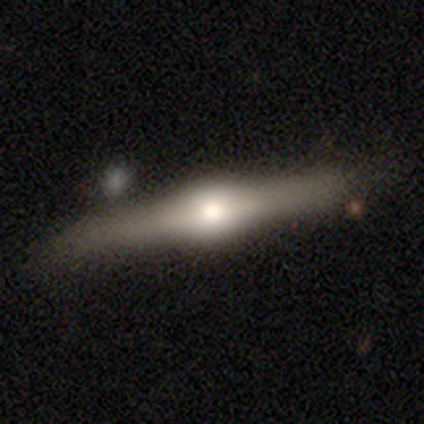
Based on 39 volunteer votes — A featured or disk galaxy (87%) viewed edge-on (97%) with a rounded central bulge (97%). Merging: none (81%).